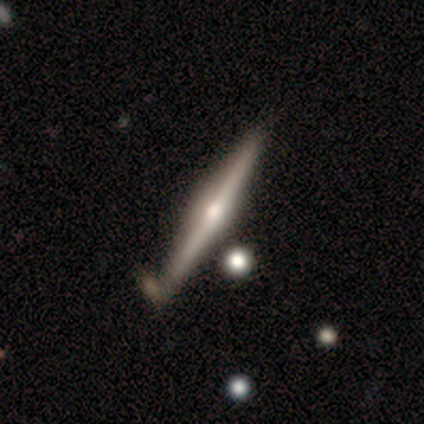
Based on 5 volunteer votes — smooth-or-featured: featured or disk: 80% | smooth: 20% | star or artifact: 0%
  disk-edge-on: yes: 100% | no: 0%
    edge-on-bulge: rounded: 100% | boxy: 0% | none: 0%
  merging: none: 80% | merger: 20% | minor disturbance: 0% | major disturbance: 0%